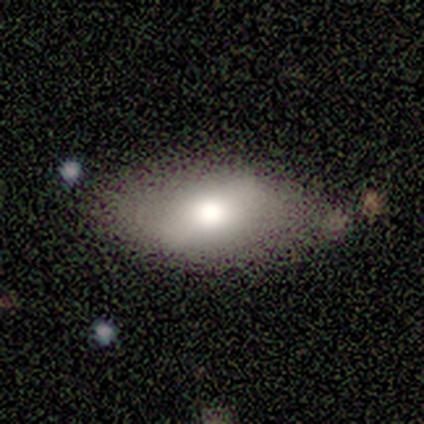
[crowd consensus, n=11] Smooth or featured?
  - smooth: 55% *
  - featured or disk: 45%
  - star or artifact: 0%
How rounded?
  - in between: 100% *
  - round: 0%
  - cigar-shaped: 0%
Merging?
  - none: 91% *
  - minor disturbance: 9%
  - major disturbance: 0%
  - merger: 0%